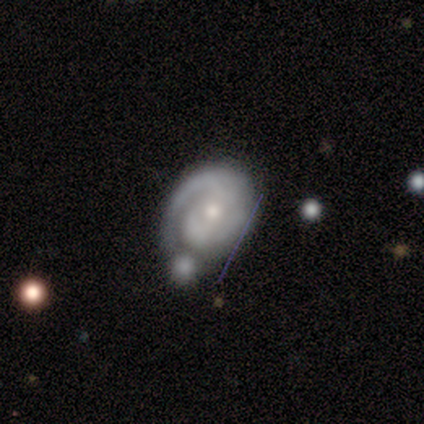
Q: Smooth or featured?
A: featured or disk (100%)
Q: Edge-on disk?
A: no (100%)
Q: Bar?
A: no (89%); runner-up: weak (11%)
Q: Spiral arms?
A: yes (100%)
Q: Spiral winding?
A: tight (44%); tied with: medium (44%)
Q: Spiral arm count?
A: 1 (56%); runner-up: 2 (44%)
Q: Bulge size?
A: small (56%); runner-up: moderate (33%)
Q: Merging?
A: minor disturbance (33%); runner-up: none (22%)